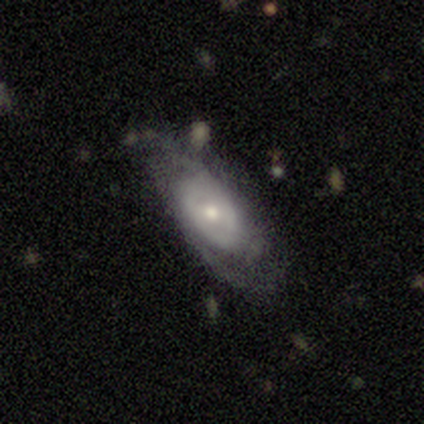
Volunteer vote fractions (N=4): Smooth or featured? featured or disk (75%)
Edge-on disk? no (100%)
Bar? no (67%)
Spiral arms? yes (100%)
Spiral winding? tight (33%, tied with medium and loose)
Spiral arm count? 2 (100%)
Bulge size? moderate (100%)
Merging? none (75%)